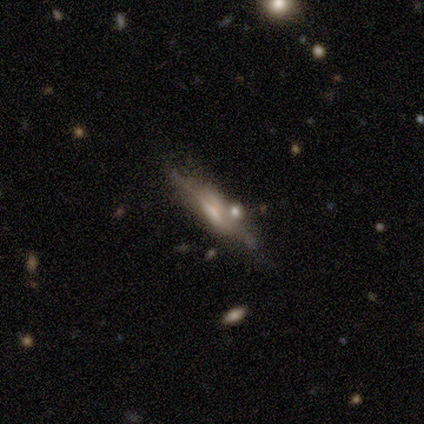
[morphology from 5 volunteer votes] Smooth or featured: smooth — 40% (tied with featured or disk — 40%)
How rounded: cigar-shaped — 100%
Merging: none — 75% (minor disturbance — 25%)